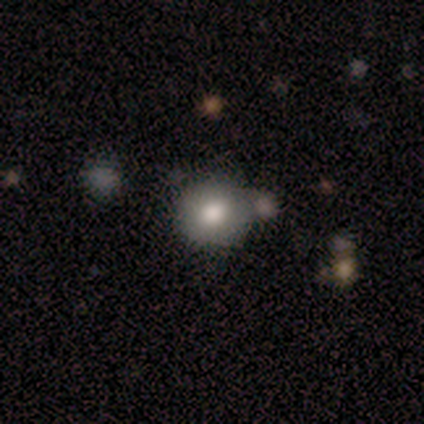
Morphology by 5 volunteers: This appears to be a smooth galaxy with no disk features (60%) that is round (100%). Merging: none (100%).